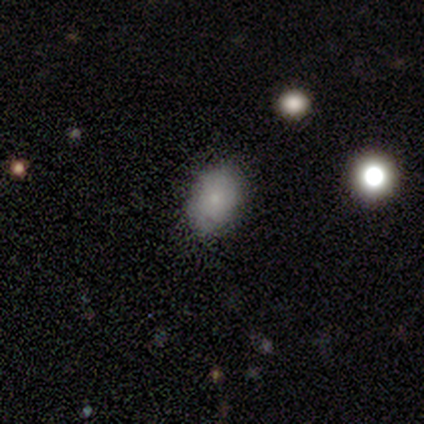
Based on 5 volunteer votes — smooth 60%, featured or disk 20%, star or artifact 20%. Down the decision tree: how rounded — in between (100%); merging — none (100%).